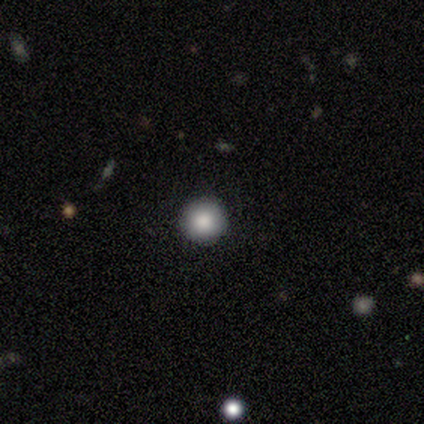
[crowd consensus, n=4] A smooth galaxy with no disk features (75%) that is round (100%). Merging: none (100%).